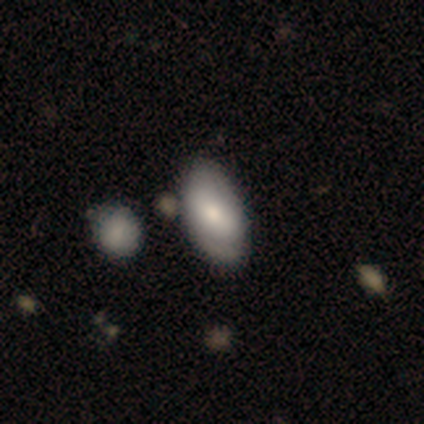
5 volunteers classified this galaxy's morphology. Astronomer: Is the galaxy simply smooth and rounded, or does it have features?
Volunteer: smooth — 80%.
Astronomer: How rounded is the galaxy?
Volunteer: in between — 100%.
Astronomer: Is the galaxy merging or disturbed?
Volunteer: none — 50%.